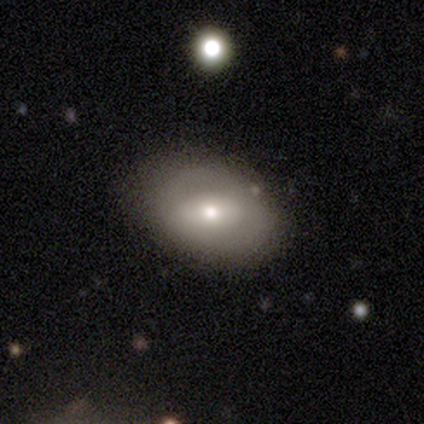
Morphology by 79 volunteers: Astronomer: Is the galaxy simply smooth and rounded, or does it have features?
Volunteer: smooth — 49% (runner-up: featured or disk, 41%).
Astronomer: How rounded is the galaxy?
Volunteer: in between — 85%.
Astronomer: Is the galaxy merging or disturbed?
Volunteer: none — 37% (runner-up: minor disturbance, 14%).